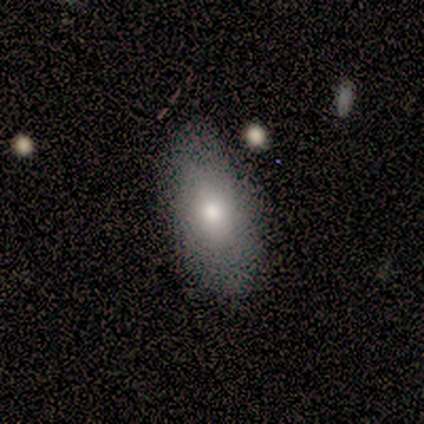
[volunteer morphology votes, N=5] Smooth or featured? 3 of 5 (60%) said smooth. How rounded? 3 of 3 (100%) said in between. Merging? 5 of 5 (100%) said none.